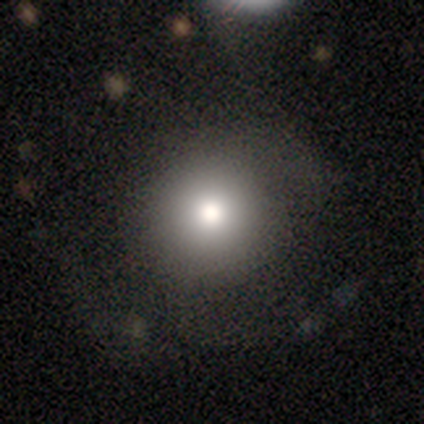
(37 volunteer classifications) smooth 65%, featured or disk 27%, star or artifact 8%. Down the decision tree: how rounded — round (92%); merging — none (79%).